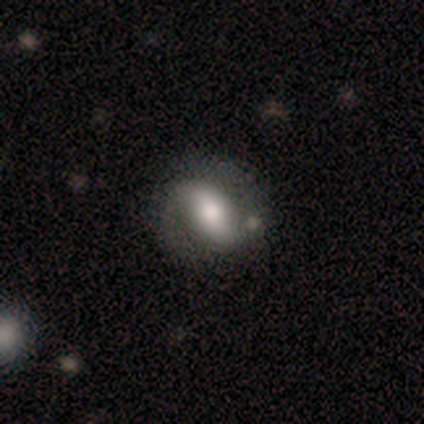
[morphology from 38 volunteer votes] type=featured or disk (58%); edge-on=no (100%); bar=strong (50%); spiral arms=yes (77%); winding=medium (47%); arm count=2 (100%); bulge=moderate (59%); merging=none (68%).